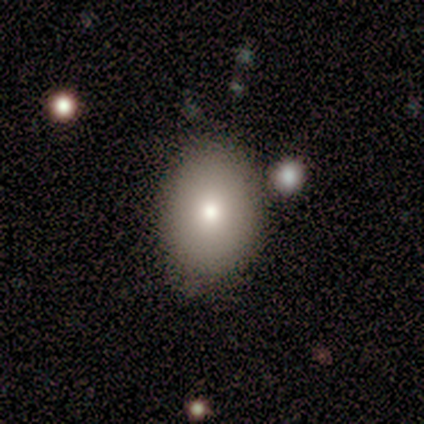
smooth-or-featured: smooth: 50% (tied) | star or artifact: 50% (tied) | featured or disk: 0%
  how-rounded: in between: 100% | round: 0% | cigar-shaped: 0%
  merging: none: 100% | minor disturbance: 0% | major disturbance: 0% | merger: 0%